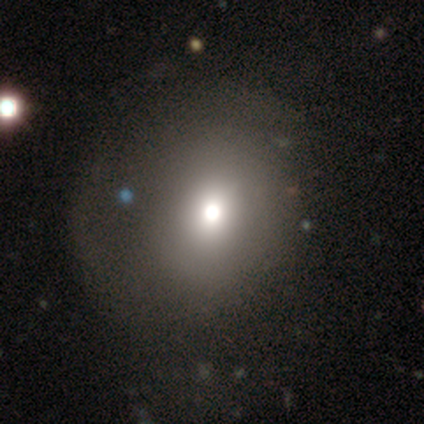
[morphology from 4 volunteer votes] type=smooth (50%); roundness=round (100%); merging=none (67%).